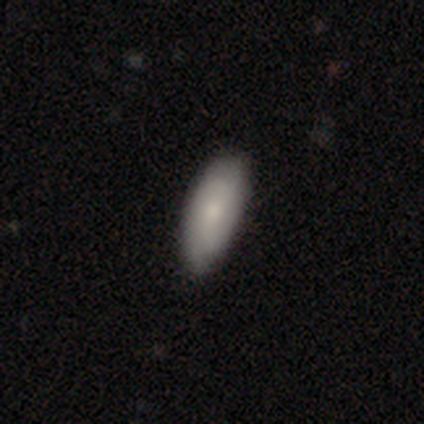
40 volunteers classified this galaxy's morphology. Volunteers were most divided on "smooth or featured": smooth: 68%, featured or disk: 30%, star or artifact: 2%. More confident: how rounded — in between (85%); merging — none (69%).